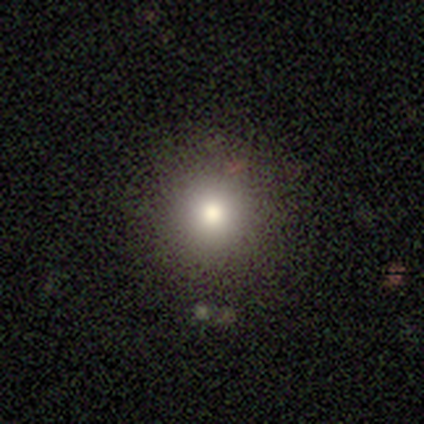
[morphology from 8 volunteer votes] Overall: smooth (62%; star or artifact 38%). How rounded: round (100%). Merging: none (80%).